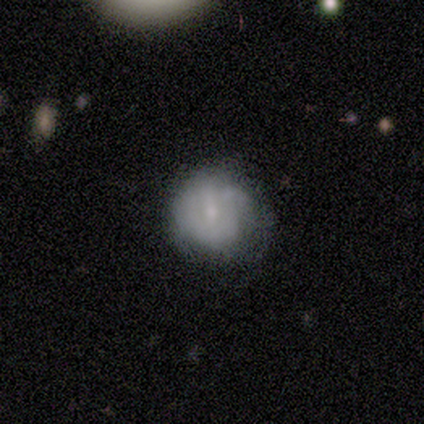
Overall: featured or disk (75%). Edge-on disk: no (100%). Bar: weak (67%; no 33%). Spiral arms: yes (67%; no 33%). Spiral arm count: 1 (50%, tied with can't tell). Spiral winding: tight (100%). Bulge size: small (67%; moderate 33%). Merging: none (75%).